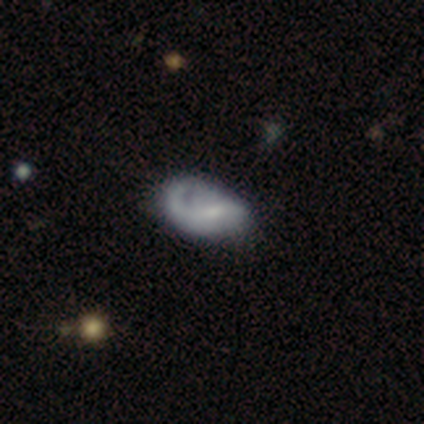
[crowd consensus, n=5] A featured or disk galaxy (80%) with a weak bar (67%), 1 (33%, tied with 2 and can't tell) tight (33%, tied with medium and loose) spiral arms (100%) and a small central bulge (67%). Merging: minor disturbance (60%).